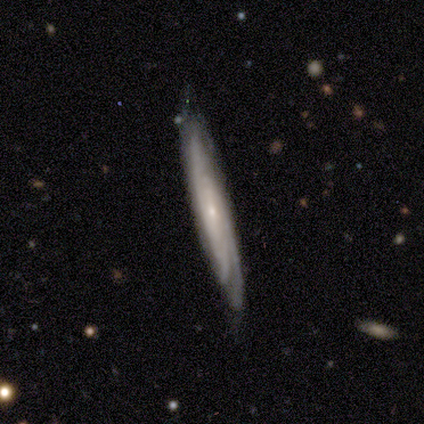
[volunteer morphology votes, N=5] Smooth or featured: featured or disk — 100%
Edge-on disk: yes — 60% (no — 40%)
Edge-on bulge: none — 67% (rounded — 33%)
Merging: minor disturbance — 60% (none — 40%)